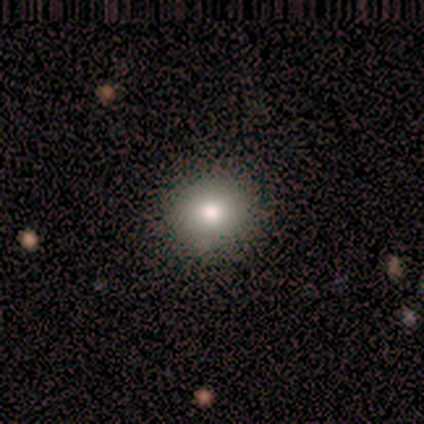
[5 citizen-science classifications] This appears to be a smooth galaxy with no disk features (60%) that is round (100%). Merging: none (100%).